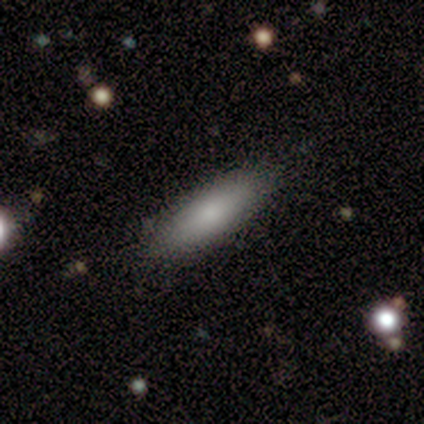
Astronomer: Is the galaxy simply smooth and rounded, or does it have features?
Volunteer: smooth — 100%.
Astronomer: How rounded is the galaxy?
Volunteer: cigar-shaped — 60% (runner-up: in between, 40%).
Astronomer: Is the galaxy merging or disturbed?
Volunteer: none — 100%.